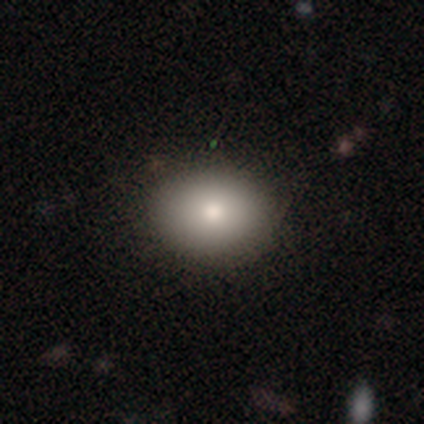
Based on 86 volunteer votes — A smooth galaxy with no disk features (83%) that is in between round and cigar-shaped (61%). Merging: none (90%).